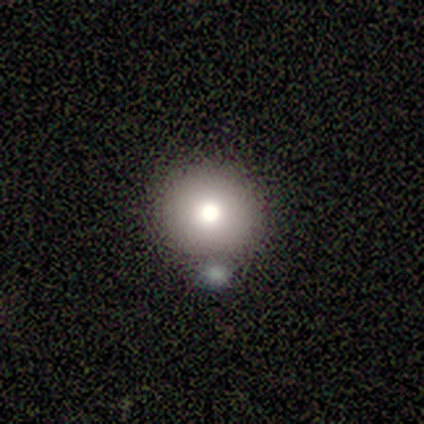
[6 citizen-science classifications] Overall: smooth (83%). How rounded: round (80%). Merging: merger (40%; none 20%).